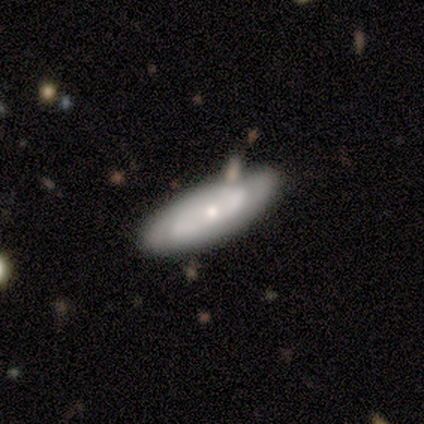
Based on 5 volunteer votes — This is likely a smooth galaxy (60%). How rounded: likely cigar-shaped (67%). Merging: clearly none (80%).